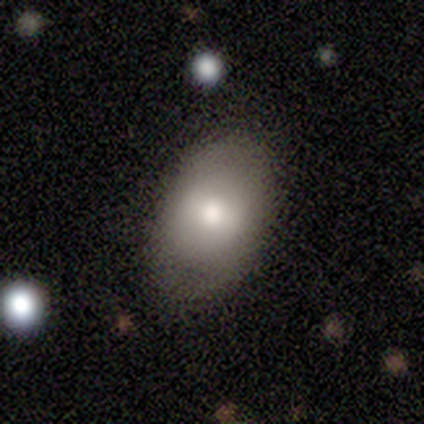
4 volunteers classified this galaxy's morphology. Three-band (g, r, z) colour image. It shows a smooth galaxy with no disk features (75%) that is in between round and cigar-shaped (100%). Merging: none (100%).